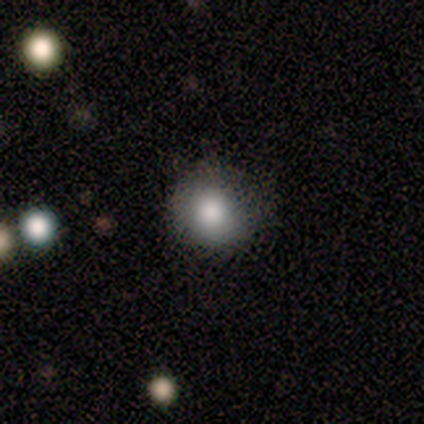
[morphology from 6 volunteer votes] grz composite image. It shows a smooth galaxy with no disk features (100%) that is round (83%). Merging: none (83%).